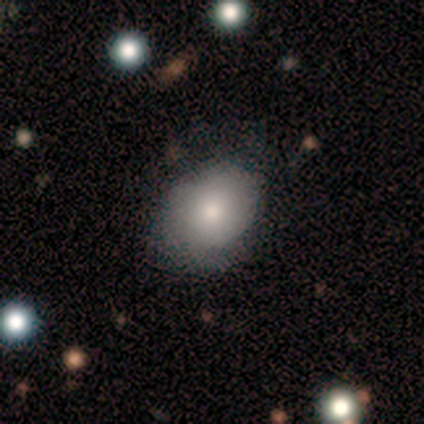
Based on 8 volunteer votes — Smooth or featured? 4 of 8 (50%, tied with featured or disk) said smooth. How rounded? 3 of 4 (75%) said round. Merging? 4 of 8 (50%, tied with minor disturbance) said none.